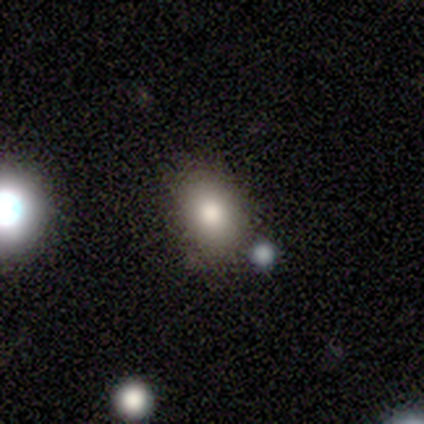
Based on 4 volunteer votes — A smooth galaxy with no disk features (100%) that is in between round and cigar-shaped (75%). Merging: none (75%).